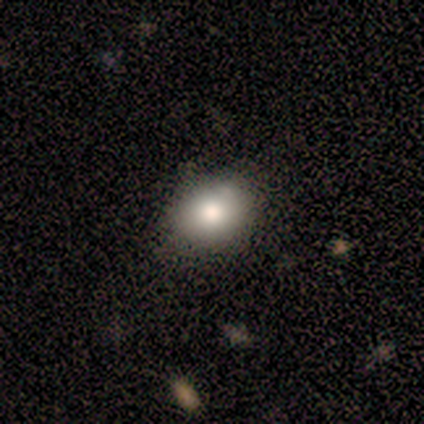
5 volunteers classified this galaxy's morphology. Smooth or featured? 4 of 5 (80%) said smooth. How rounded? 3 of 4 (75%) said in between. Merging? 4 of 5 (80%) said none.